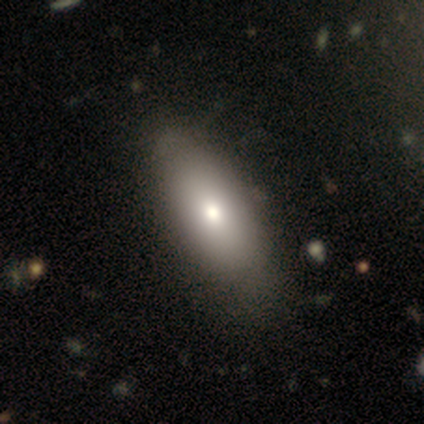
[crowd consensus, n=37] Smooth or featured: smooth — 68% (featured or disk — 30%)
How rounded: in between — 96% (cigar-shaped — 4%)
Merging: none — 50% (minor disturbance — 11%)